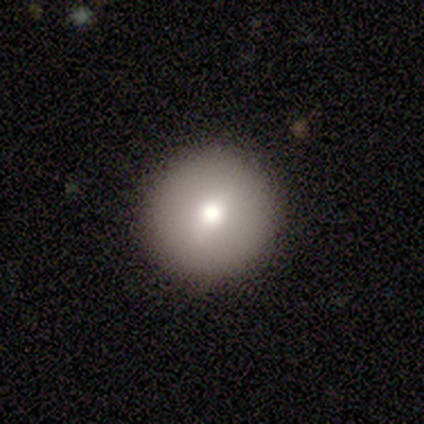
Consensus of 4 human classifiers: Smooth or featured? 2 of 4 (50%) said smooth. How rounded? 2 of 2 (100%) said round. Merging? 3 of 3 (100%) said none.